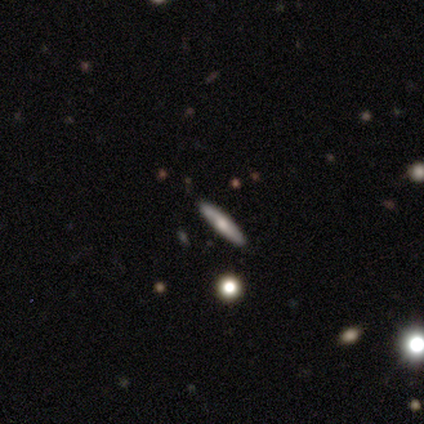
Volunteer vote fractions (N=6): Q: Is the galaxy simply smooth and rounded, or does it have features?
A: smooth — 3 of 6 (50%, tied with featured or disk).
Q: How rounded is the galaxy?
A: cigar-shaped — 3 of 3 (100%).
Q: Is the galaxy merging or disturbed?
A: none — 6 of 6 (100%).